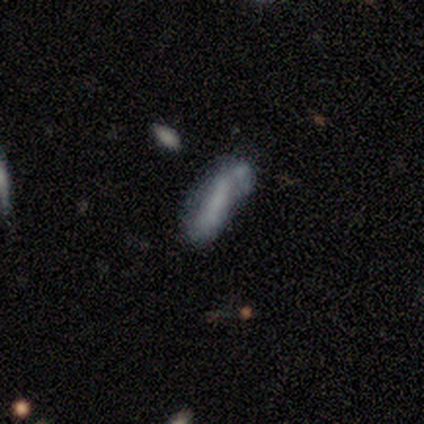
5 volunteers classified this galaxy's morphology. This appears to be a smooth galaxy with no disk features (80%) that is in between round and cigar-shaped (50%, tied with cigar-shaped). Merging: none (25%, tied with minor disturbance, major disturbance and merger).